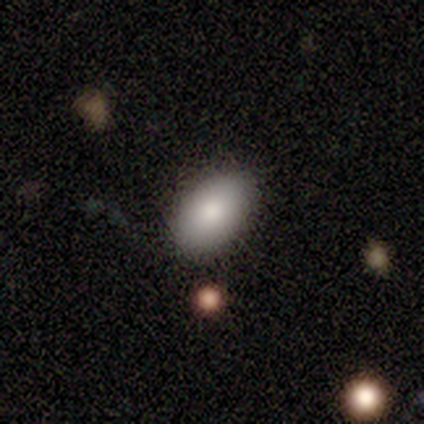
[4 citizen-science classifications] smooth 100%, featured or disk 0%, star or artifact 0%. Down the decision tree: how rounded — in between (100%); merging — none (100%).